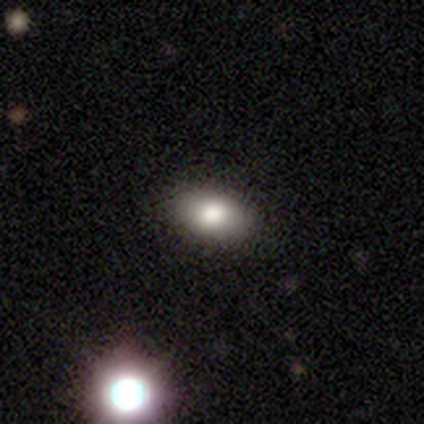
smooth_or_featured: smooth (p=0.78) [alt: featured or disk p=0.11]
how_rounded: in between (p=0.90) [alt: round p=0.10]
merging: none (p=0.88) [alt: merger p=0.09]